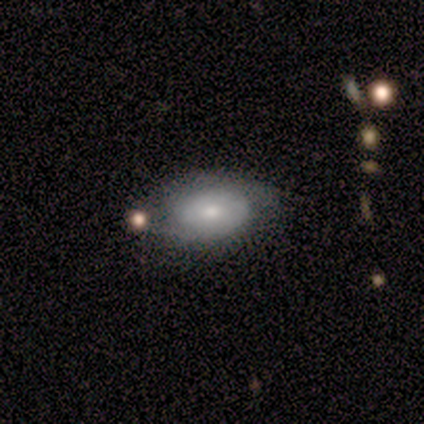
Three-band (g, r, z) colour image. It shows a featured or disk galaxy (80%) with no bar (100%), 2 (67%) tight (67%) spiral arms (75%) and a moderate central bulge (50%, tied with small). Merging: none (80%).